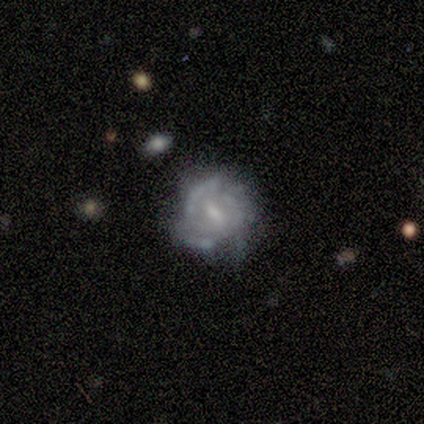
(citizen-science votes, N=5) This is likely a featured or disk galaxy (60%). It is likely not viewed edge-on (67%). Bar: clearly weak (100%). Spiral arm pattern: possibly yes (50%, tied with no). Spiral arm count: clearly 3 (100%). Spiral winding: clearly medium (100%). Central bulge: clearly small (100%). Merging: likely minor disturbance (60%).